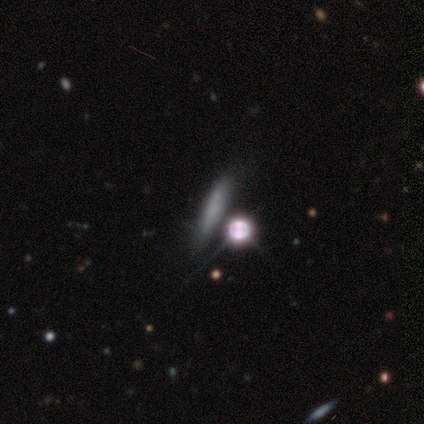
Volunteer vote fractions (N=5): smooth 40% (tied), star or artifact 40% (tied), featured or disk 20%. Down the decision tree: how rounded — in between (50%, tied with cigar-shaped); merging — none (100%).